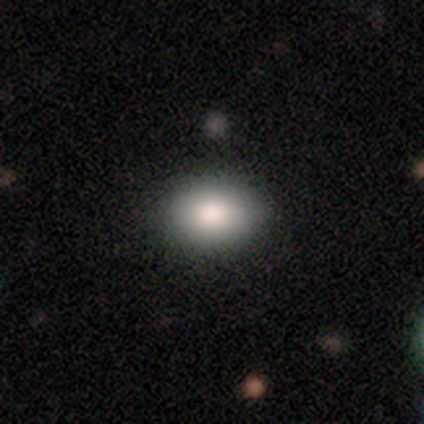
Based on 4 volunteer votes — Smooth or featured? smooth (100%)
How rounded? round (50%, tied with in between)
Merging? none (75%)